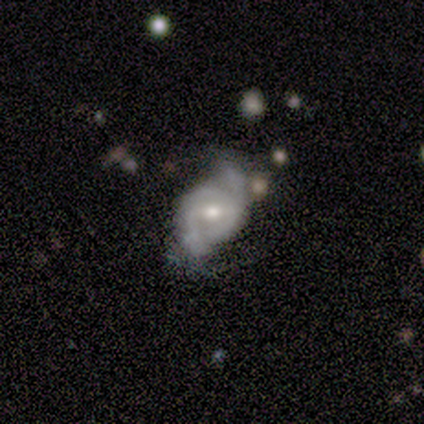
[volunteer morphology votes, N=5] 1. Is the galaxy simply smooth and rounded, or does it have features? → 60% featured or disk, 40% smooth, 0% star or artifact.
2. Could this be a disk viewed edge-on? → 100% no, 0% yes.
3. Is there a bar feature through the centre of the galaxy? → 67% weak, 33% strong, 0% no.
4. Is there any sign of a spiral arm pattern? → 100% yes, 0% no.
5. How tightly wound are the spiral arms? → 33% tight (tied), 33% medium (tied), 33% loose (tied).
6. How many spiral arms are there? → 100% 2, 0% 1, 0% 3, 0% 4, 0% more than 4, 0% can't tell.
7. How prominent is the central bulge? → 67% small, 33% moderate, 0% dominant, 0% large, 0% none.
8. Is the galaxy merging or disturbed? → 100% none, 0% minor disturbance, 0% major disturbance, 0% merger.